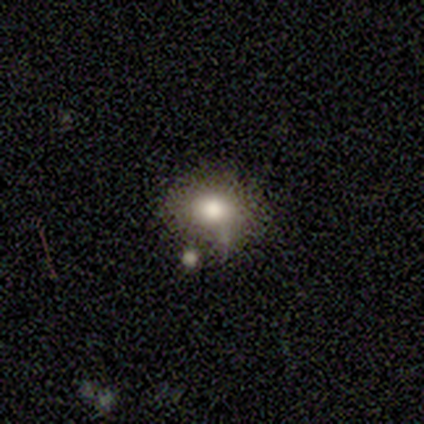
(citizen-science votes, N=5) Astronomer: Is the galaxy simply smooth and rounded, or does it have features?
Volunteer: smooth — 100%.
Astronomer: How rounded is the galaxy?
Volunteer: in between — 60% (runner-up: round, 40%).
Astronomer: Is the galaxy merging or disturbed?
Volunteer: none — 80%.